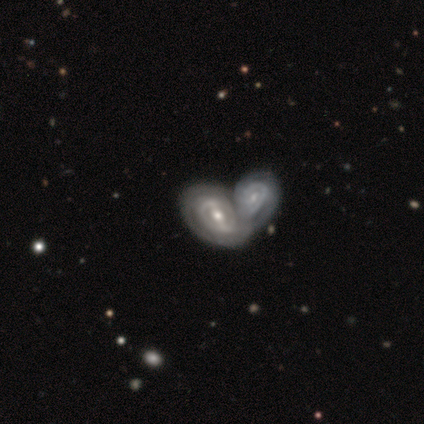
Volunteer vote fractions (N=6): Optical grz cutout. It shows a featured or disk galaxy (100%) with a weak bar (67%), 1 (40%, tied with 2) tight (80%) spiral arms (83%) and a moderate central bulge (83%). Merging: merger (100%).